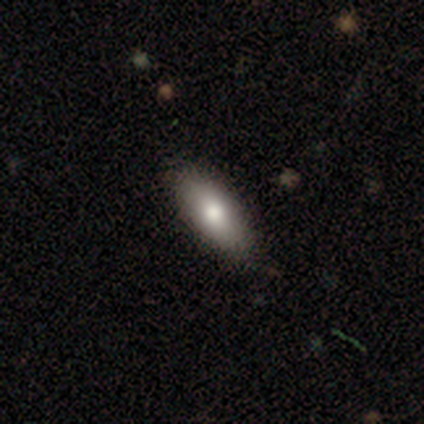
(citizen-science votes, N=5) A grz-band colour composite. It shows a smooth galaxy with no disk features (100%) that is in between round and cigar-shaped (60%). Merging: minor disturbance (60%).